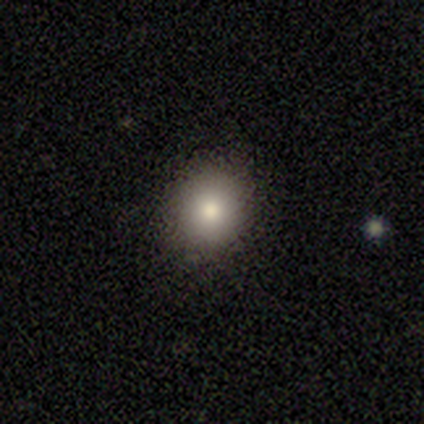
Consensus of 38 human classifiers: Q: Smooth or featured?
A: smooth (92%); runner-up: star or artifact (5%)
Q: How rounded?
A: round (80%); runner-up: in between (17%)
Q: Merging?
A: none (89%); runner-up: minor disturbance (8%)